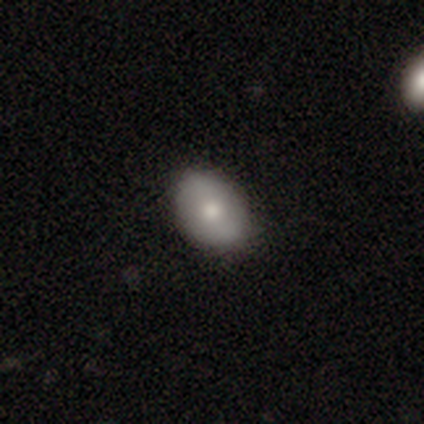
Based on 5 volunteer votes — smooth_or_featured: smooth (p=1.00)
how_rounded: in between (p=0.80) [alt: round p=0.20]
merging: none (p=0.60) [alt: minor disturbance p=0.40]